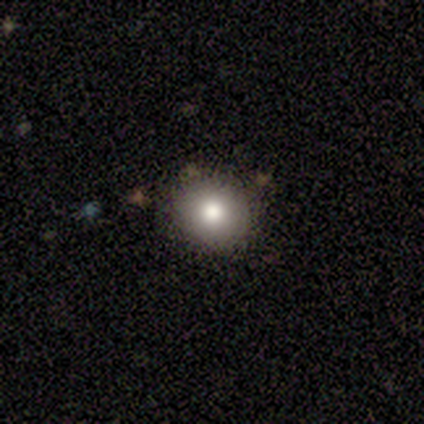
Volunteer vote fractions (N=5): Volunteers were most divided on "smooth or featured" (2-way tie): smooth: 40%, featured or disk: 40%, star or artifact: 20%. More confident: how rounded — round (100%); merging — none (100%).